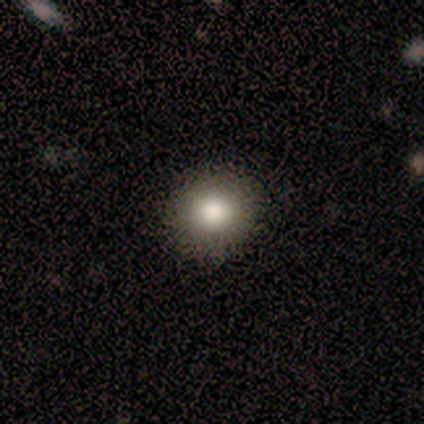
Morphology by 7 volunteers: Smooth or featured? smooth (86%)
How rounded? round (100%)
Merging? none (100%)